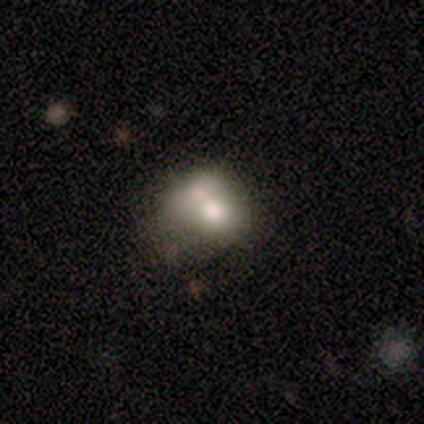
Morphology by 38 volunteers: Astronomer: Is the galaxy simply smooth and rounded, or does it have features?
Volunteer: smooth — 76%.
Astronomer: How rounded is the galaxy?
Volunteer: round — 55% (runner-up: in between, 41%).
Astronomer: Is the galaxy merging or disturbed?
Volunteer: merger — 51% (runner-up: none, 34%).